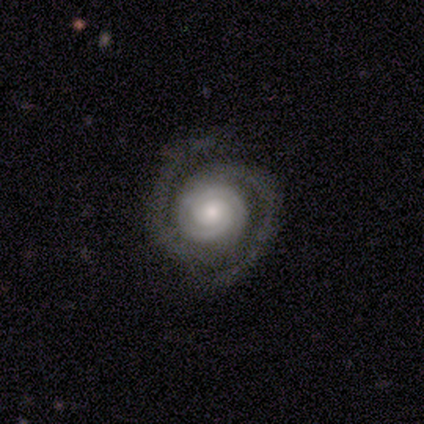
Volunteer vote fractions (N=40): A featured or disk galaxy (92%) with no bar (76%), 2 (84%) tight (78%) spiral arms (100%) and a moderate central bulge (54%).

Vote fractions:
- Smooth or featured? featured or disk: 92% / star or artifact: 8% / smooth: 0%
- Edge-on disk? no: 100% / yes: 0%
- Bar? no: 76% / weak: 16% / strong: 8%
- Spiral arms? yes: 100% / no: 0%
- Spiral winding? tight: 78% / medium: 14% / loose: 8%
- Spiral arm count? 2: 84% / 3: 8% / can't tell: 5% / 4: 3% / 1: 0% / more than 4: 0%
- Bulge size? moderate: 54% / small: 27% / large: 16% / none: 3% / dominant: 0%
- Merging? none: 86% / minor disturbance: 8% / major disturbance: 5% / merger: 0%